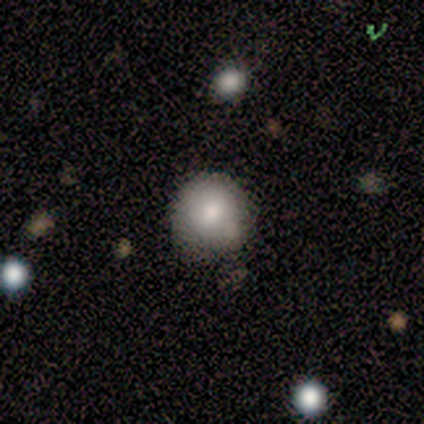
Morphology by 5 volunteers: Smooth or featured? 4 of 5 (80%) said smooth. How rounded? 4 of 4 (100%) said round. Merging? 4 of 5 (80%) said none.